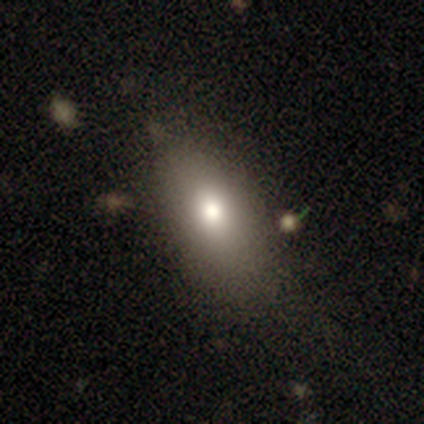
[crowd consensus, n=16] smooth_or_featured: smooth (p=0.69) [alt: star or artifact p=0.25]
how_rounded: in between (p=0.91) [alt: round p=0.09]
merging: none (p=1.00)